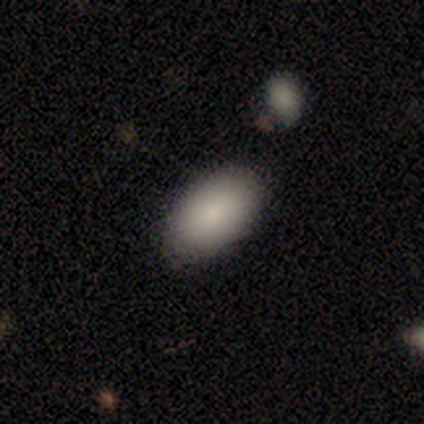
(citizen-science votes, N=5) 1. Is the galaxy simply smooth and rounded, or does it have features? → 40% smooth (tied), 40% star or artifact (tied), 20% featured or disk.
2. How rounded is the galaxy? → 100% in between, 0% round, 0% cigar-shaped.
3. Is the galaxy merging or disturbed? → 100% none, 0% minor disturbance, 0% major disturbance, 0% merger.